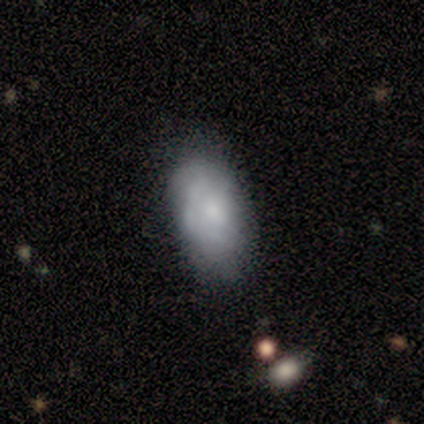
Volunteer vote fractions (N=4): smooth-or-featured: featured or disk: 75% | smooth: 25% | star or artifact: 0%
  disk-edge-on: no: 100% | yes: 0%
    bar: no: 100% | strong: 0% | weak: 0%
    has-spiral-arms: no: 67% | yes: 33%
    bulge-size: small: 100% | dominant: 0% | large: 0% | moderate: 0% | none: 0%
  merging: none: 100% | minor disturbance: 0% | major disturbance: 0% | merger: 0%